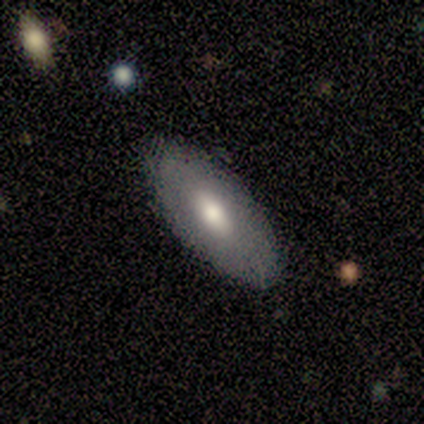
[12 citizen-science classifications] Volunteers were most divided on "smooth or featured": smooth: 75%, featured or disk: 17%, star or artifact: 8%. More confident: how rounded — in between (100%); merging — none (91%).